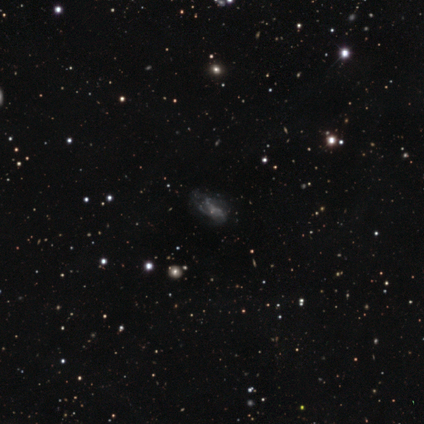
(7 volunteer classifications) smooth_or_featured: featured or disk (p=0.71) [alt: smooth p=0.14]
disk_edge_on: no (p=1.00)
bar: no (p=0.80) [alt: strong p=0.20]
has_spiral_arms: yes (p=0.60) [alt: no p=0.40]
spiral_winding: tight (p=1.00)
spiral_arm_count: can't tell (p=0.67) [alt: 3 p=0.33]
bulge_size: small (p=0.60) [alt: none p=0.40]
merging: none (p=0.50) [alt: minor disturbance p=0.33]